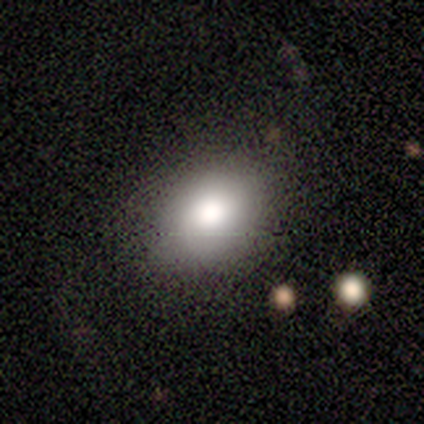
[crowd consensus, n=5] Volunteers were most divided on "smooth or featured": smooth: 80%, featured or disk: 20%, star or artifact: 0%. More confident: how rounded — in between (100%); merging — none (100%).